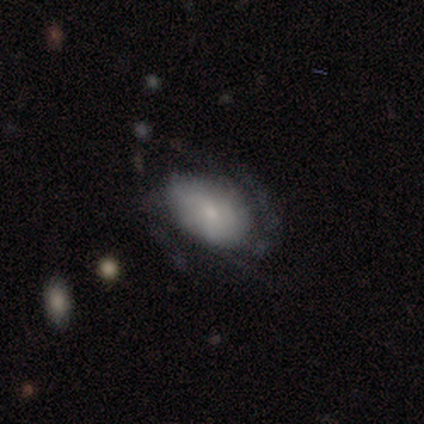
A featured or disk galaxy (60%) with no bar (100%), 2 (67%) medium (67%) spiral arms (100%) and a moderate central bulge (67%). Merging: none (40%, tied with major disturbance).